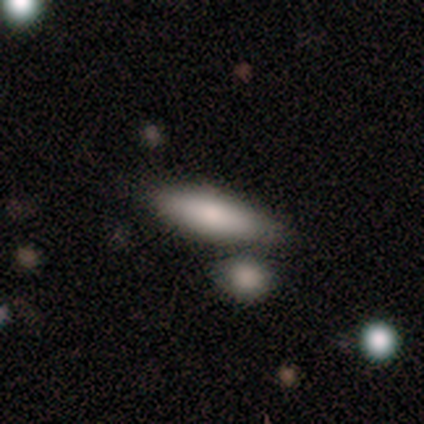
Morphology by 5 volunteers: type=smooth (100%); roundness=cigar-shaped (60%); merging=none (80%).